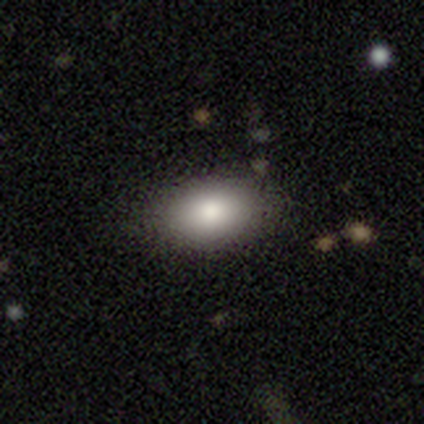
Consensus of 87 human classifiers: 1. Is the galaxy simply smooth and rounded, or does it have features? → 86% smooth, 7% featured or disk, 7% star or artifact.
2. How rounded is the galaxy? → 96% in between, 4% round, 0% cigar-shaped.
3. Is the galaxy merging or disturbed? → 90% none, 6% minor disturbance, 4% major disturbance, 0% merger.